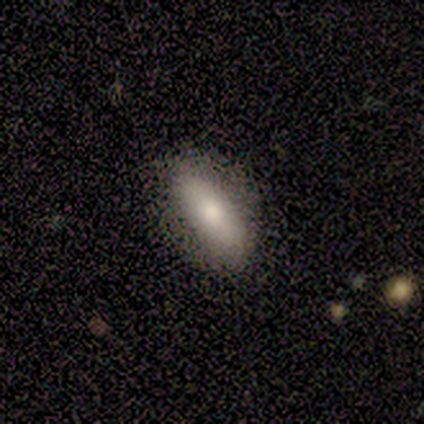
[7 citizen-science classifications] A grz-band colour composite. It shows a smooth galaxy with no disk features (86%) that is in between round and cigar-shaped (100%). Merging: none (86%).